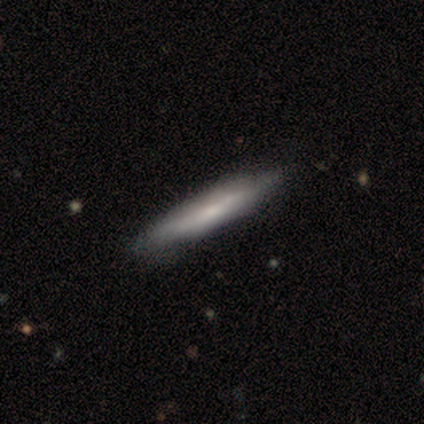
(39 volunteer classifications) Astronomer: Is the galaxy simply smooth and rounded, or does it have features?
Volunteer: smooth — 59% (runner-up: featured or disk, 41%).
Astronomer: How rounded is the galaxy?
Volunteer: cigar-shaped — 96%.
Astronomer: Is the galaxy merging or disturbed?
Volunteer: none — 74%.